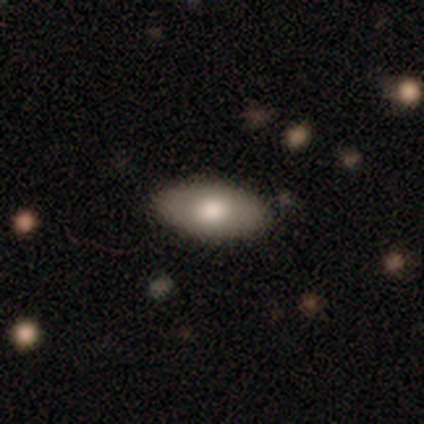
Smooth or featured: smooth — 78% (featured or disk — 22%)
How rounded: in between — 97% (round — 3%)
Merging: none — 89% (minor disturbance — 8%)